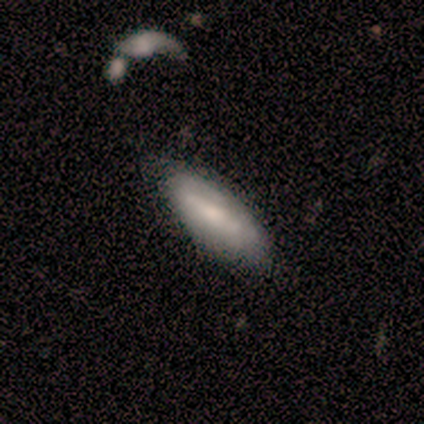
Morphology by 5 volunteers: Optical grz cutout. It shows a featured or disk galaxy (60%) with a weak bar (67%), no spiral arms (67%) and a moderate central bulge (33%, tied with small and none). Merging: minor disturbance (40%).